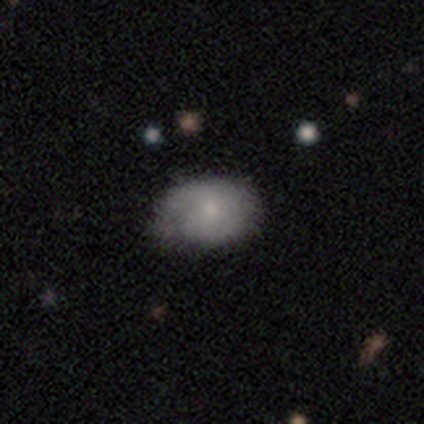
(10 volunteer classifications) Q: Smooth or featured?
A: smooth (80%); runner-up: featured or disk (20%)
Q: How rounded?
A: in between (88%); runner-up: round (12%)
Q: Merging?
A: none (60%); runner-up: minor disturbance (40%)